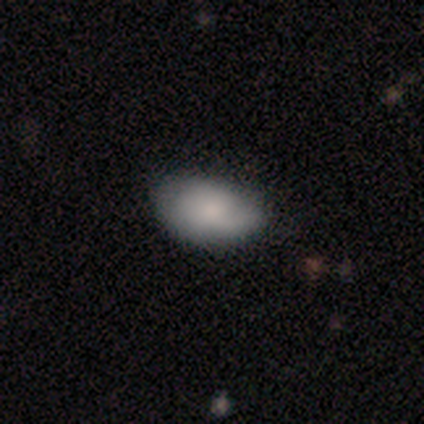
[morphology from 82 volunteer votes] smooth-or-featured: smooth: 77% | featured or disk: 18% | star or artifact: 5%
  how-rounded: in between: 95% | round: 5% | cigar-shaped: 0%
  merging: none: 60% | minor disturbance: 32% | major disturbance: 5% | merger: 3%